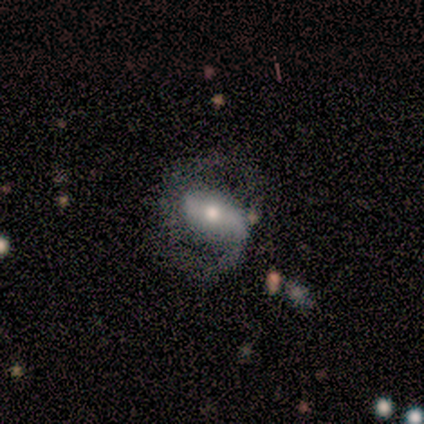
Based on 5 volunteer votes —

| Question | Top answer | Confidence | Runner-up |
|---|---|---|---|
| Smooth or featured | featured or disk | 100% | — |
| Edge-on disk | no | 100% | — |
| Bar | weak | 60% | strong (20%) |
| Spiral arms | yes | 100% | — |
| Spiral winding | medium | 60% | loose (40%) |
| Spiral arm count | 2 | 100% | — |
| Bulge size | moderate | 60% | small (40%) |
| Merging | minor disturbance | 60% | none (40%) |